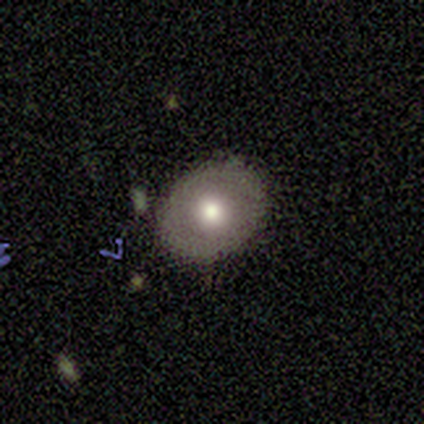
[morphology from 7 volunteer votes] Smooth or featured? 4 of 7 (57%) said smooth. How rounded? 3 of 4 (75%) said in between. Merging? 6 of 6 (100%) said none.